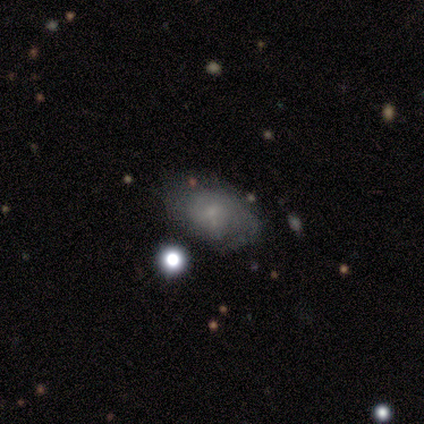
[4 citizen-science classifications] A smooth galaxy with no disk features (50%) that is round (50%, tied with in between).

Vote fractions:
- Smooth or featured? smooth: 50% / featured or disk: 25% / star or artifact: 25%
- How rounded? round: 50% (tied) / in between: 50% (tied) / cigar-shaped: 0%
- Merging? none: 100% / minor disturbance: 0% / major disturbance: 0% / merger: 0%